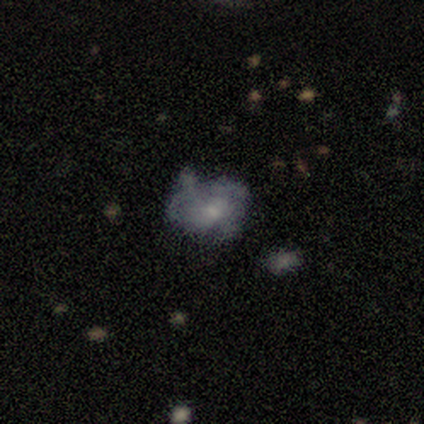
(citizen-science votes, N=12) smooth-or-featured: featured or disk: 58% | smooth: 25% | star or artifact: 17%
  disk-edge-on: no: 100% | yes: 0%
    bar: no: 86% | weak: 14% | strong: 0%
    has-spiral-arms: no: 57% | yes: 43%
    bulge-size: none: 43% | moderate: 29% | small: 29% | dominant: 0% | large: 0%
  merging: none: 50% | major disturbance: 40% | minor disturbance: 10% | merger: 0%